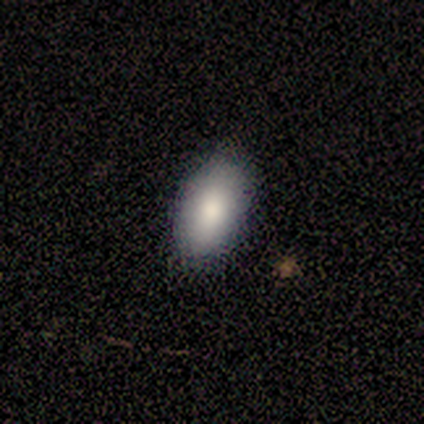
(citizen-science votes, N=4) smooth_or_featured: smooth (p=1.00)
how_rounded: in between (p=1.00)
merging: none (p=0.75) [alt: minor disturbance p=0.25]